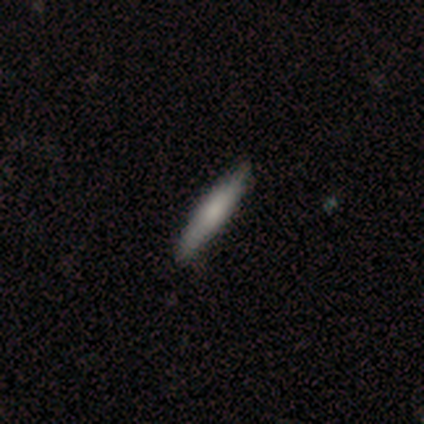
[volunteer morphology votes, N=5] This appears to be a smooth galaxy with no disk features (40%, tied with featured or disk) that is cigar-shaped (100%). Merging: none (100%).